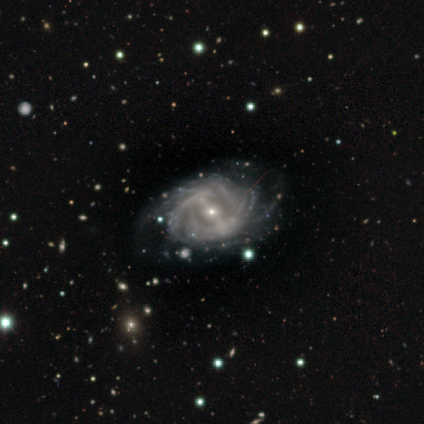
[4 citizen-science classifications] Volunteers were most divided on "spiral winding": tight: 75%, loose: 25%, medium: 0%. More confident: smooth or featured — featured or disk (100%); edge-on disk — no (100%); bar — strong (100%); spiral arms — yes (100%); merging — none (100%); spiral arm count — can't tell (75%); bulge size — small (75%).